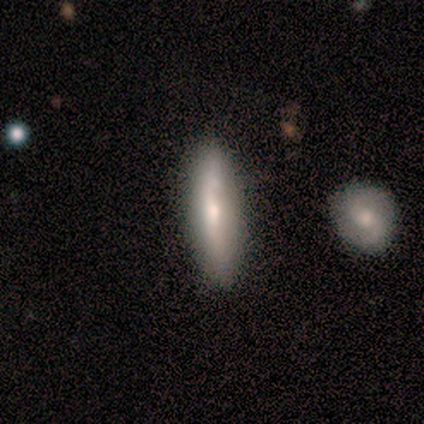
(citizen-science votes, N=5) A smooth galaxy with no disk features (40%, tied with featured or disk) that is cigar-shaped (100%).

Vote fractions:
- Smooth or featured? smooth: 40% (tied) / featured or disk: 40% (tied) / star or artifact: 20%
- How rounded? cigar-shaped: 100% / round: 0% / in between: 0%
- Merging? none: 100% / minor disturbance: 0% / major disturbance: 0% / merger: 0%